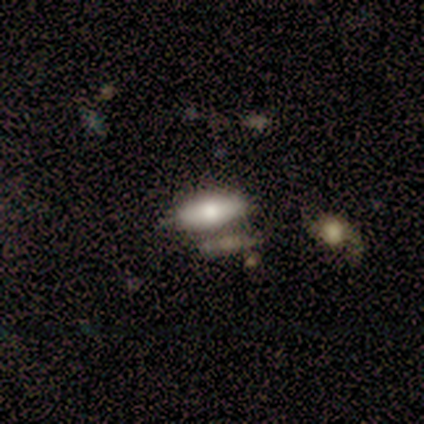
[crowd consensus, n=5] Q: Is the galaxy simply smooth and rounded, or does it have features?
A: smooth — 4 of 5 (80%).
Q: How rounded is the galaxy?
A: in between — 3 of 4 (75%).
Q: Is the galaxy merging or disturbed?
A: minor disturbance — 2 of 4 (50%).